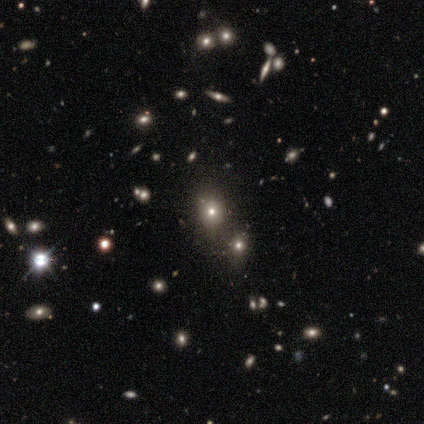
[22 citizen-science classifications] Q: Smooth or featured?
A: smooth (55%); runner-up: star or artifact (36%)
Q: How rounded?
A: in between (75%); runner-up: round (25%)
Q: Merging?
A: none (79%); runner-up: merger (21%)